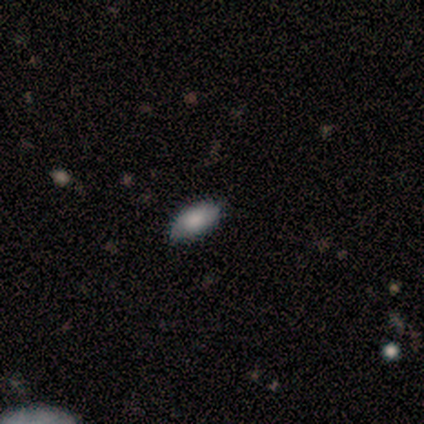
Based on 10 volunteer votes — Smooth or featured? 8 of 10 (80%) said smooth. How rounded? 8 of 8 (100%) said in between. Merging? 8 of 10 (80%) said none.